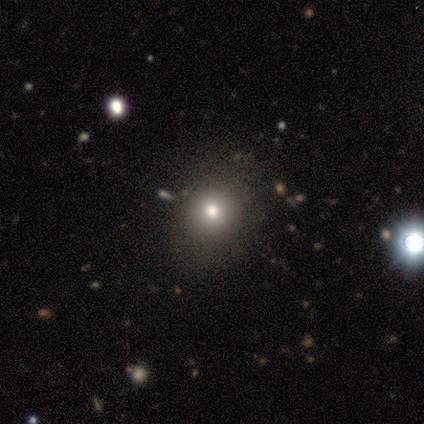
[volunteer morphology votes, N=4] A smooth galaxy with no disk features (100%) that is round (50%, tied with in between).

Vote fractions:
- Smooth or featured? smooth: 100% / featured or disk: 0% / star or artifact: 0%
- How rounded? round: 50% (tied) / in between: 50% (tied) / cigar-shaped: 0%
- Merging? none: 50% (tied) / minor disturbance: 50% (tied) / major disturbance: 0% / merger: 0%